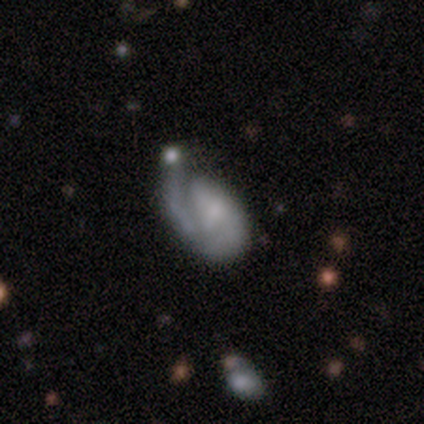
A featured or disk galaxy (75%) with no bar (67%), 1 (62%) tight (59%) spiral arms (81%) and no central bulge (35%).

Vote fractions:
- Smooth or featured? featured or disk: 75% / smooth: 18% / star or artifact: 7%
- Edge-on disk? no: 97% / yes: 3%
- Bar? no: 67% / weak: 29% / strong: 4%
- Spiral arms? yes: 81% / no: 19%
- Spiral winding? tight: 59% / loose: 23% / medium: 18%
- Spiral arm count? 1: 62% / 2: 21% / can't tell: 12% / 3: 4% / 4: 0% / more than 4: 0%
- Bulge size? none: 35% / small: 30% / moderate: 26% / large: 6% / dominant: 3%
- Merging? minor disturbance: 39% / major disturbance: 26% / none: 22% / merger: 14%